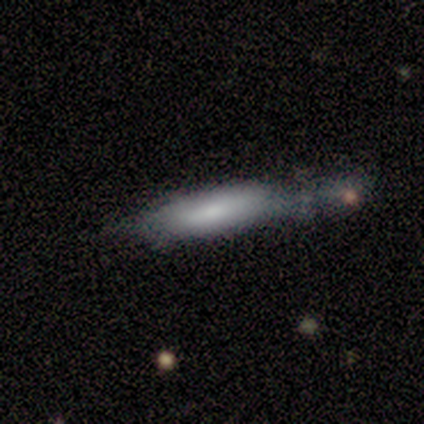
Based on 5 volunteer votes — smooth_or_featured: smooth (p=0.60) [alt: featured or disk p=0.40]
how_rounded: cigar-shaped (p=1.00)
merging: minor disturbance (p=0.60) [alt: major disturbance p=0.20]